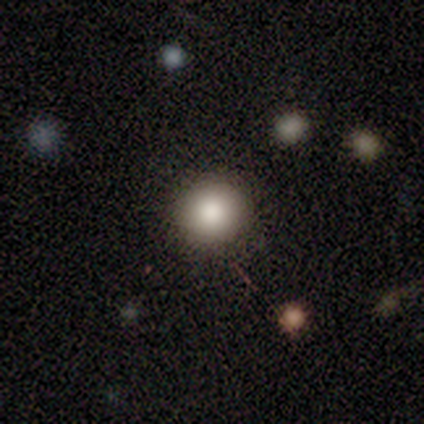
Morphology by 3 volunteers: Smooth or featured: smooth — 67% (star or artifact — 33%)
How rounded: round — 100%
Merging: none — 100%